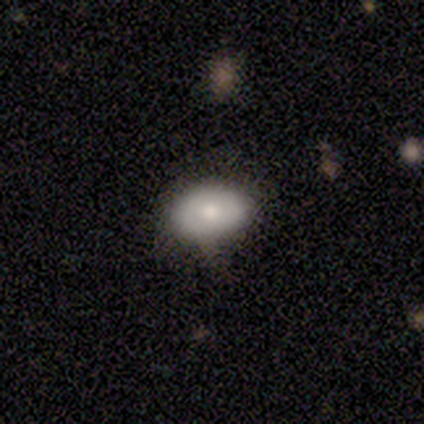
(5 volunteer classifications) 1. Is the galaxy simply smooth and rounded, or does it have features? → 80% smooth, 20% featured or disk, 0% star or artifact.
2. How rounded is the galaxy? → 100% in between, 0% round, 0% cigar-shaped.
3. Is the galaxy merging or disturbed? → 100% none, 0% minor disturbance, 0% major disturbance, 0% merger.